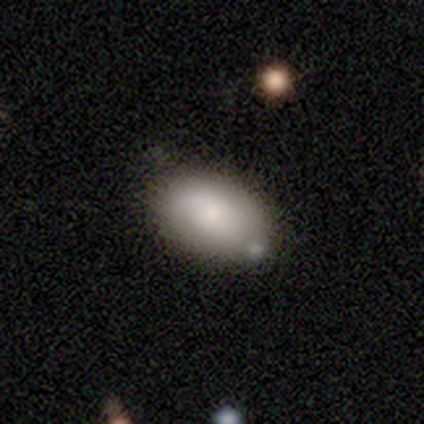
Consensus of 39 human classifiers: Smooth or featured? 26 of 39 (67%) said smooth. How rounded? 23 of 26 (88%) said in between. Merging? 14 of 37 (38%) said none.